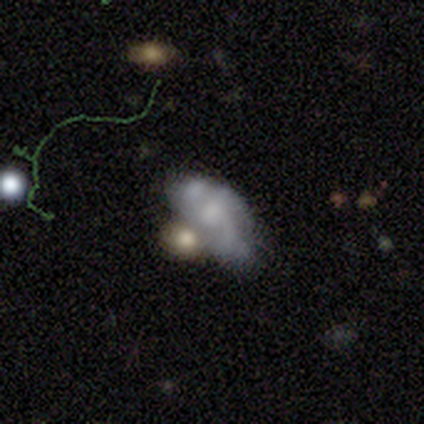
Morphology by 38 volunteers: Smooth or featured? 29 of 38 (76%) said featured or disk. Edge-on disk? 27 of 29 (93%) said no. Bar? 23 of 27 (85%) said no. Spiral arms? 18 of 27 (67%) said no. Bulge size? 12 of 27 (44%) said small. Merging? 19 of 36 (53%) said merger.